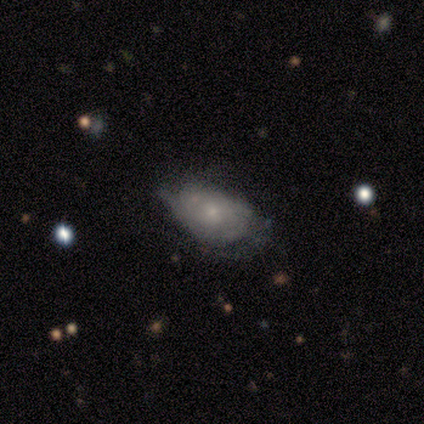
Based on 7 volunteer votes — Q: Smooth or featured?
A: smooth (57%); runner-up: featured or disk (43%)
Q: How rounded?
A: in between (100%)
Q: Merging?
A: none (57%); runner-up: major disturbance (29%)